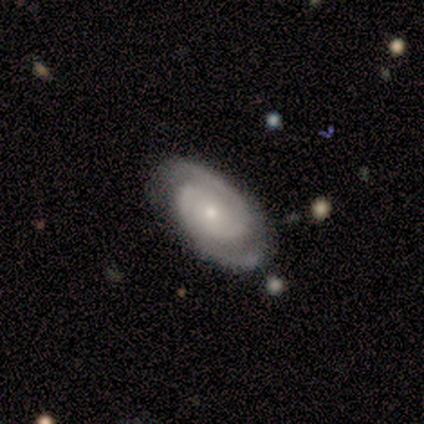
Morphology: type=featured or disk (100%); edge-on=no (100%); bar=no (83%); spiral arms=yes (100%); winding=tight (67%); arm count=2 (83%); bulge=small (100%); merging=none (100%).